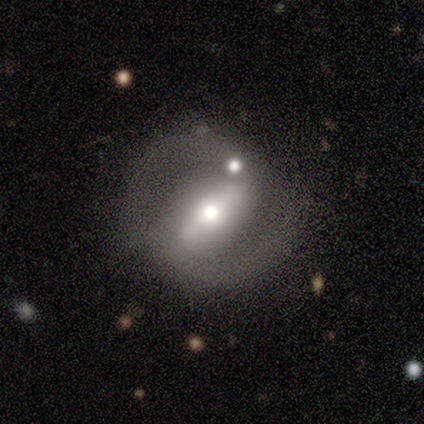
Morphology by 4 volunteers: Smooth or featured: featured or disk — 75% (smooth — 25%)
Edge-on disk: no — 100%
Bar: strong — 100%
Spiral arms: yes — 100%
Spiral winding: medium — 100%
Spiral arm count: 2 — 100%
Bulge size: moderate — 100%
Merging: none — 75% (merger — 25%)